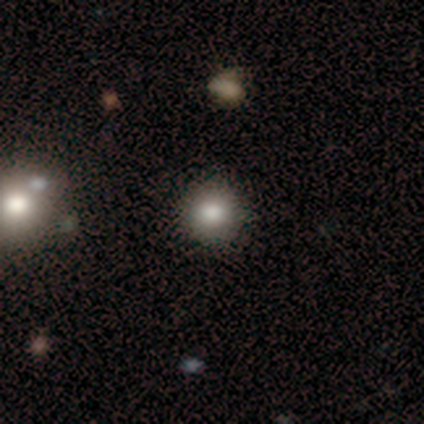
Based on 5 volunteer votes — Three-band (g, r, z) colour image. It shows a smooth galaxy with no disk features (100%) that is round (100%). Merging: none (100%).